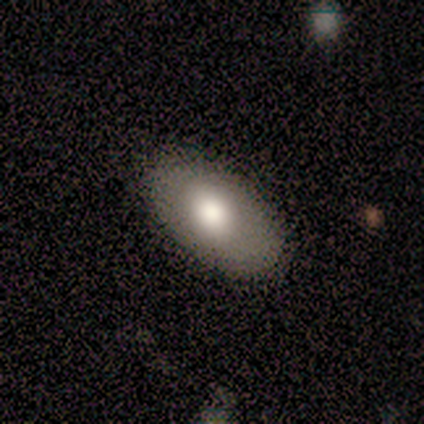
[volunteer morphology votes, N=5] Overall: featured or disk (60%; smooth 40%). Edge-on disk: no (67%; yes 33%). Bar: no (100%). Spiral arms: no (100%). Bulge size: moderate (100%). Merging: none (100%).